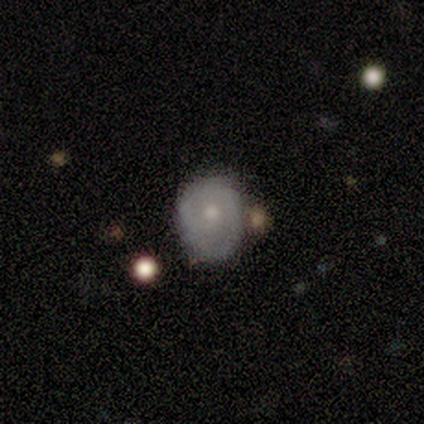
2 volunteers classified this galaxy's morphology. Smooth or featured: featured or disk — 100%
Edge-on disk: no — 100%
Bar: no — 100%
Spiral arms: no — 100%
Bulge size: moderate — 50% (tied with small — 50%)
Merging: minor disturbance — 100%